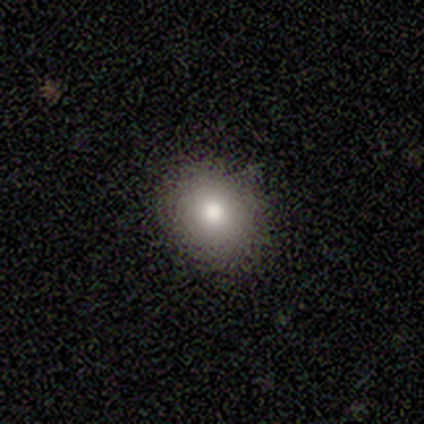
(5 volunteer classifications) Overall: smooth (60%; featured or disk 20%). How rounded: round (67%; in between 33%). Merging: none (100%).